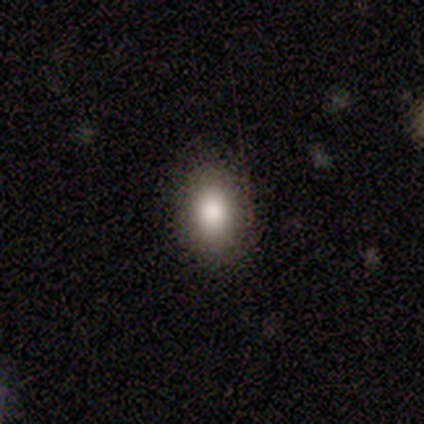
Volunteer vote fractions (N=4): A smooth galaxy with no disk features (100%) that is in between round and cigar-shaped (75%).

Vote fractions:
- Smooth or featured? smooth: 100% / featured or disk: 0% / star or artifact: 0%
- How rounded? in between: 75% / round: 25% / cigar-shaped: 0%
- Merging? none: 100% / minor disturbance: 0% / major disturbance: 0% / merger: 0%